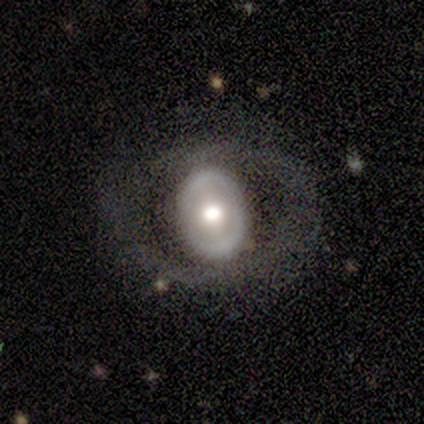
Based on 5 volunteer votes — smooth_or_featured: featured or disk (p=0.80) [alt: smooth p=0.20]
disk_edge_on: no (p=1.00)
bar: weak (p=0.50) [tied with: no p=0.50]
has_spiral_arms: no (p=1.00)
bulge_size: moderate (p=0.75) [alt: large p=0.25]
merging: none (p=0.80) [alt: major disturbance p=0.20]